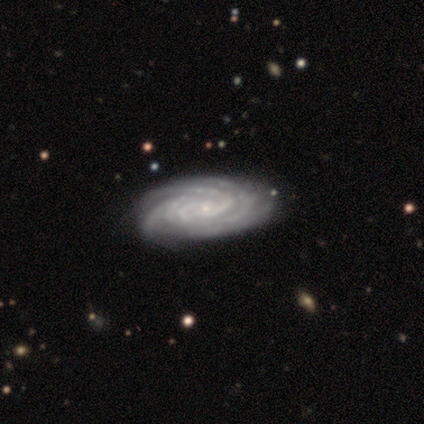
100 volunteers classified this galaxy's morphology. Smooth or featured: featured or disk — 97% (star or artifact — 2%)
Edge-on disk: no — 92% (yes — 8%)
Bar: no — 87% (weak — 10%)
Spiral arms: yes — 99% (no — 1%)
Spiral winding: tight — 86% (medium — 14%)
Spiral arm count: 4 — 36% (more than 4 — 31%)
Bulge size: small — 89% (moderate — 8%)
Merging: none — 61% (minor disturbance — 16%)